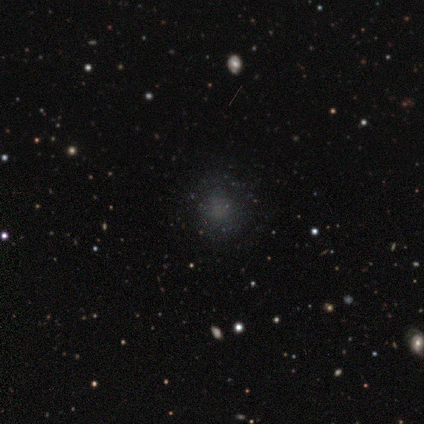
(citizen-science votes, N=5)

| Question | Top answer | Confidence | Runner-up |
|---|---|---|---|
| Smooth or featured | smooth | 60% | star or artifact (40%) |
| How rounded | round | 100% | — |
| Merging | none | 100% | — |